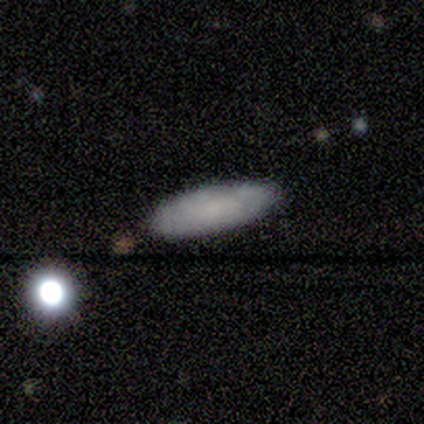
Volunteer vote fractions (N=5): Morphology: type=smooth (100%); roundness=in between (100%); merging=none (100%).